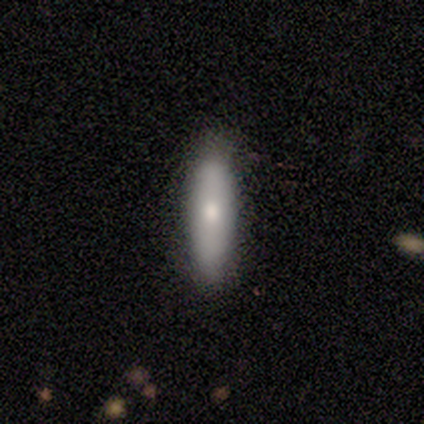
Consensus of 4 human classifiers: Smooth or featured? 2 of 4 (50%) said smooth. How rounded? 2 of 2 (100%) said cigar-shaped. Merging? 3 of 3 (100%) said none.